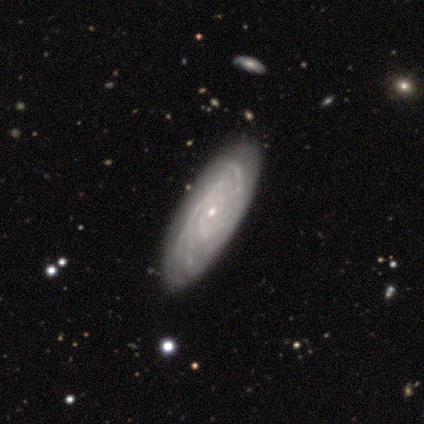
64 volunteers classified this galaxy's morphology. This is clearly a featured or disk galaxy (84%). It is clearly not viewed edge-on (91%). Bar: clearly no (90%). Spiral arm pattern: clearly yes (96%). Spiral arm count: marginally can't tell (32%). Spiral winding: likely tight (79%). Central bulge: likely small (73%). Merging: likely none (65%).